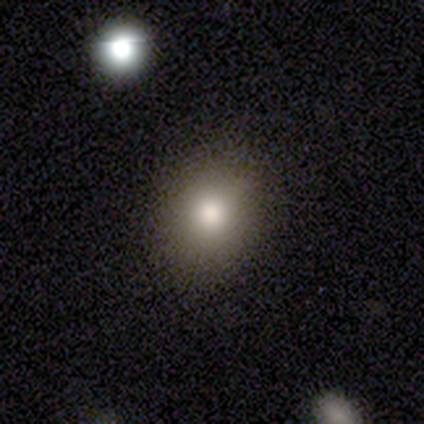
Q: Smooth or featured?
A: smooth (40%); tied with: featured or disk (40%)
Q: How rounded?
A: round (50%); tied with: in between (50%)
Q: Merging?
A: none (100%)